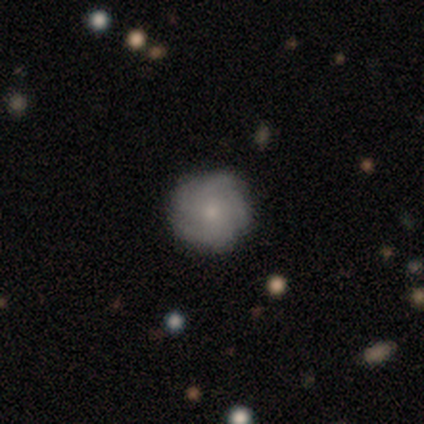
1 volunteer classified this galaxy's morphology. Overall: featured or disk (100%). Edge-on disk: no (100%). Bar: no (100%). Spiral arms: yes (100%). Spiral arm count: more than 4 (100%). Spiral winding: medium (100%). Bulge size: small (100%). Merging: none (100%).